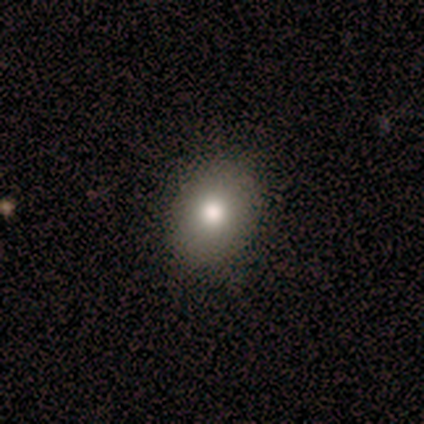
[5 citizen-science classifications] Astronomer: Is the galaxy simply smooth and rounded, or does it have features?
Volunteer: smooth — 80%.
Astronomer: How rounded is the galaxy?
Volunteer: round — 50%, tied with in between at 50%.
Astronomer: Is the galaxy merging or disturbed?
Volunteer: none — 75%.